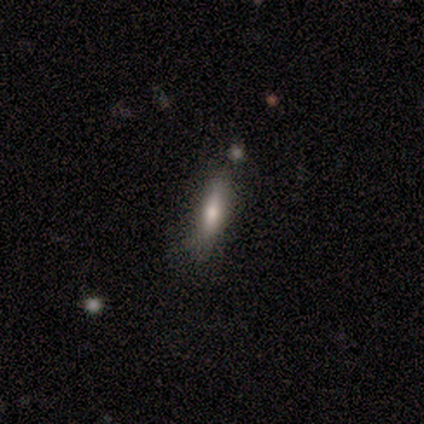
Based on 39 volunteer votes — This appears to be a smooth galaxy with no disk features (67%) that is cigar-shaped (69%). Merging: none (82%).